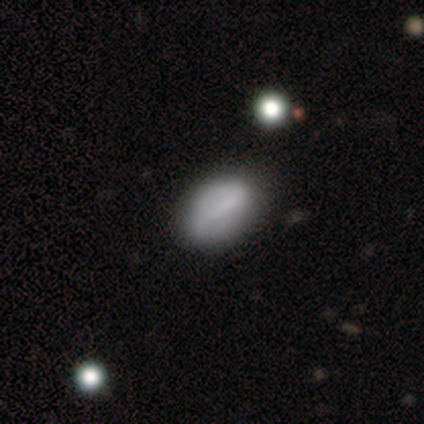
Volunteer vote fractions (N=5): This appears to be a smooth galaxy with no disk features (80%) that is in between round and cigar-shaped (100%). Merging: none (60%).